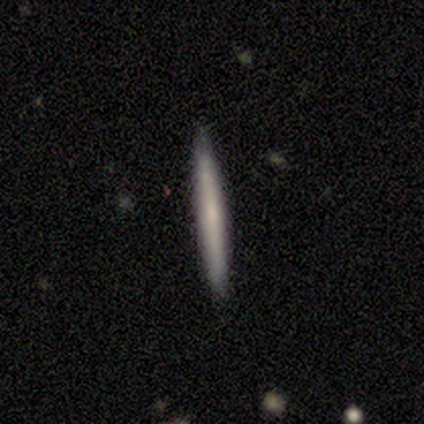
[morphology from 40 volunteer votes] smooth 57%, featured or disk 38%, star or artifact 5%. Down the decision tree: how rounded — cigar-shaped (100%); merging — none (97%).